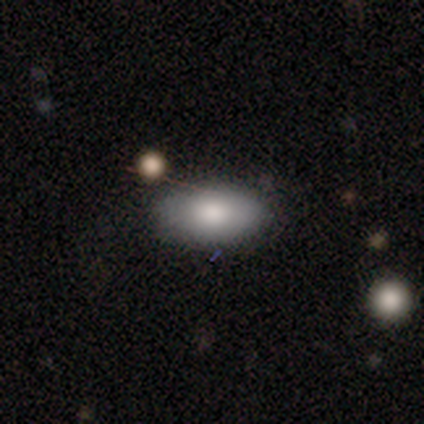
Smooth or featured? smooth (84%)
How rounded? in between (94%)
Merging? none (79%)